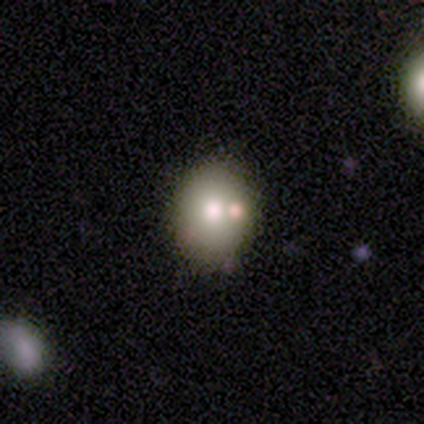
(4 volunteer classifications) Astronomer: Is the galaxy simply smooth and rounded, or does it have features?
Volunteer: smooth — 50%, tied with featured or disk at 50%.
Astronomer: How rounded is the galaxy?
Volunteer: in between — 100%.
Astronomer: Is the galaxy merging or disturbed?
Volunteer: none — 100%.